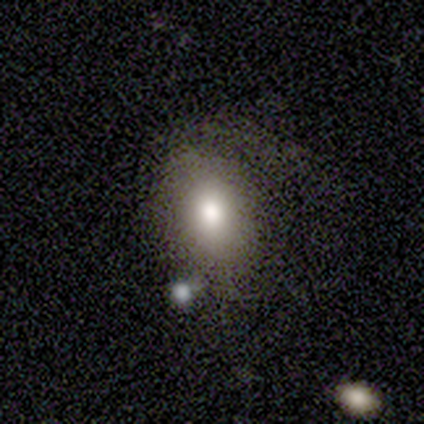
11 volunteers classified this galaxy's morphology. Smooth or featured? smooth (73%)
How rounded? in between (62%)
Merging? none (82%)